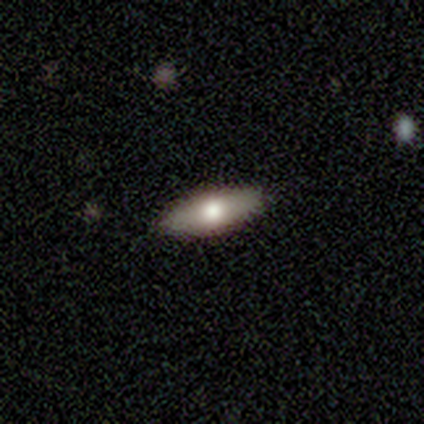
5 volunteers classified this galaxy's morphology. Overall: smooth (100%). How rounded: in between (80%). Merging: none (80%).